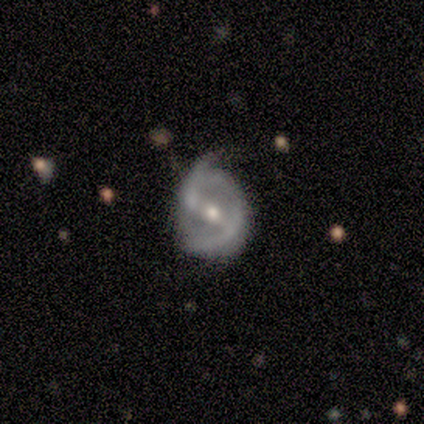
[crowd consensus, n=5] Smooth or featured: featured or disk — 100%
Edge-on disk: no — 100%
Bar: weak — 40% (tied with no — 40%)
Spiral arms: yes — 100%
Spiral winding: tight — 40% (tied with loose — 40%)
Spiral arm count: 2 — 80% (1 — 20%)
Bulge size: moderate — 60% (small — 40%)
Merging: none — 80% (minor disturbance — 20%)